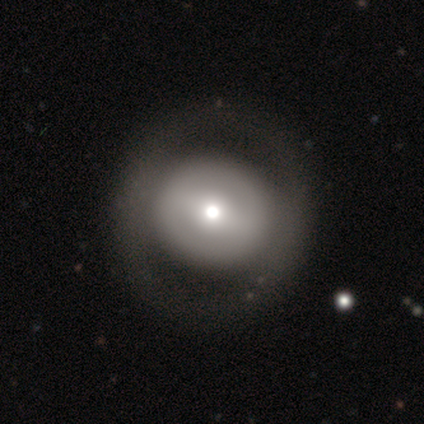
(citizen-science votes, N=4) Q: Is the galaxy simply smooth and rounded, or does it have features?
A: smooth — 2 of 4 (50%).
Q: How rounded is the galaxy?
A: round — 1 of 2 (50%, tied with in between).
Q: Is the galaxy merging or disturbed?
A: none — 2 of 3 (67%).